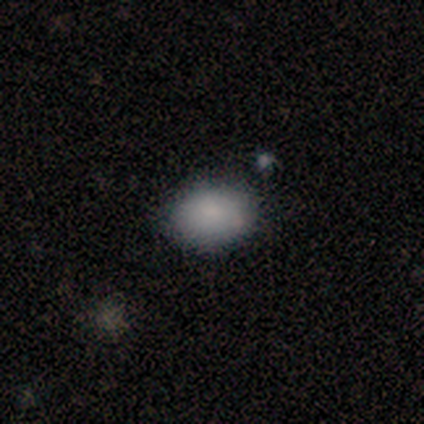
Q: Smooth or featured?
A: smooth (82%); runner-up: featured or disk (15%)
Q: How rounded?
A: in between (79%); runner-up: round (21%)
Q: Merging?
A: none (79%); runner-up: minor disturbance (15%)